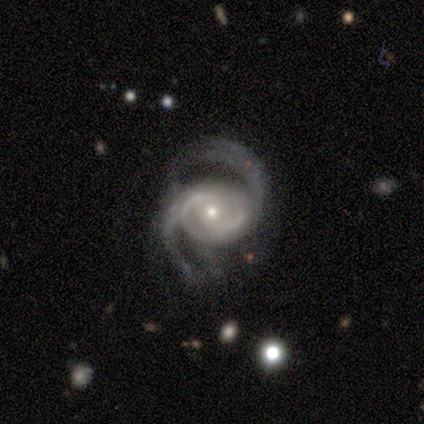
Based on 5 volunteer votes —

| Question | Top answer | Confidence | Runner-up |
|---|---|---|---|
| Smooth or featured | featured or disk | 100% | — |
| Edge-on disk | no | 100% | — |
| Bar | no | 60% | weak (40%) |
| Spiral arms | yes | 100% | — |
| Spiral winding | medium | 80% | loose (20%) |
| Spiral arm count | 2 | 80% | 4 (20%) |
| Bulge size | small | 80% | moderate (20%) |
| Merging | none | 60% | minor disturbance (20%) |